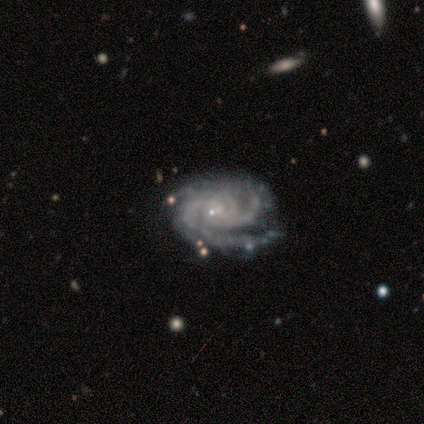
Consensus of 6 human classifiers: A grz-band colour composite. It shows a featured or disk galaxy (83%) with no bar (80%), 4 (60%) tight (80%) spiral arms (100%) and a small central bulge (80%). Merging: none (50%).